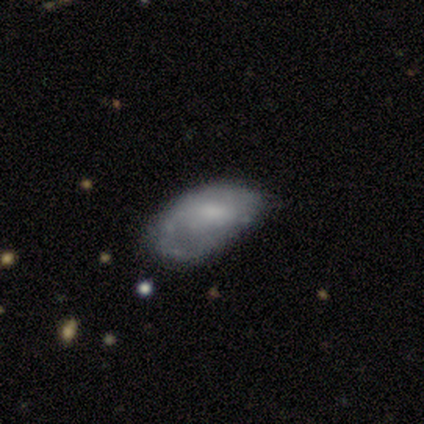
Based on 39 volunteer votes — A featured or disk galaxy (54%) with a weak bar (43%, tied with no), 1 (55%) loose (45%) spiral arms (52%) and a small central bulge (38%).

Vote fractions:
- Smooth or featured? featured or disk: 54% / smooth: 41% / star or artifact: 5%
- Edge-on disk? no: 100% / yes: 0%
- Bar? weak: 43% (tied) / no: 43% (tied) / strong: 14%
- Spiral arms? yes: 52% / no: 48%
- Spiral winding? loose: 45% / medium: 36% / tight: 18%
- Spiral arm count? 1: 55% / 2: 27% / can't tell: 18% / 3: 0% / 4: 0% / more than 4: 0%
- Bulge size? small: 38% / none: 29% / moderate: 24% / large: 10% / dominant: 0%
- Merging? minor disturbance: 38% / none: 22% / major disturbance: 16% / merger: 0%